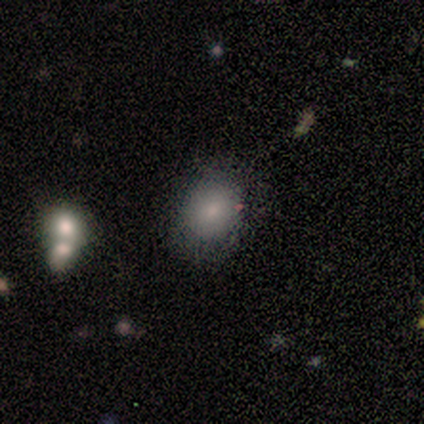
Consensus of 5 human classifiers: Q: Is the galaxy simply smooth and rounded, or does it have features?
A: smooth — 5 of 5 (100%).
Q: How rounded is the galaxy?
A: round — 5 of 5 (100%).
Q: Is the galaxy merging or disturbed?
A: none — 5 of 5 (100%).